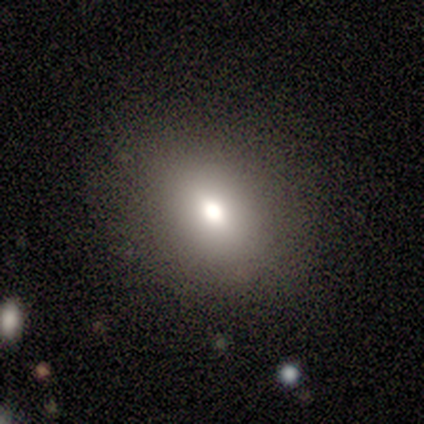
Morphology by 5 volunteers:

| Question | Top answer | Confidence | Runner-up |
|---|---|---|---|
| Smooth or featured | smooth | 80% | star or artifact (20%) |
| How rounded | in between | 100% | — |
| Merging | none | 75% | minor disturbance (25%) |